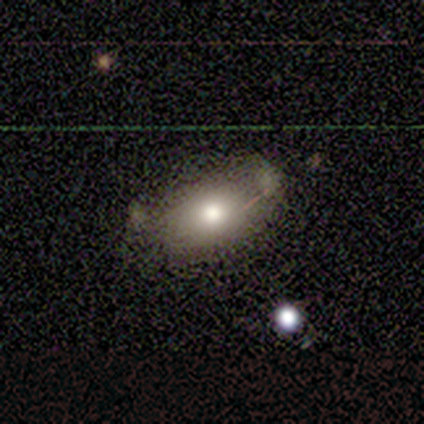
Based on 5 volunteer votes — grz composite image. It shows a smooth galaxy with no disk features (80%) that is in between round and cigar-shaped (100%). Merging: minor disturbance (80%).